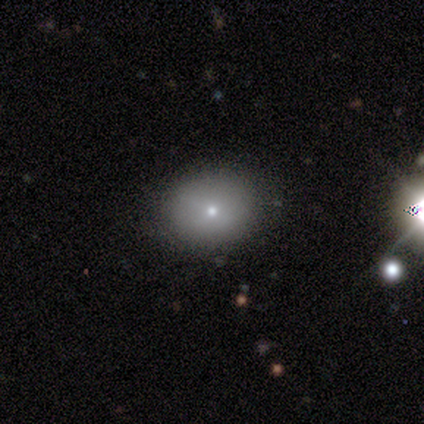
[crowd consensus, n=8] A smooth galaxy with no disk features (100%) that is in between round and cigar-shaped (75%). Merging: none (75%).